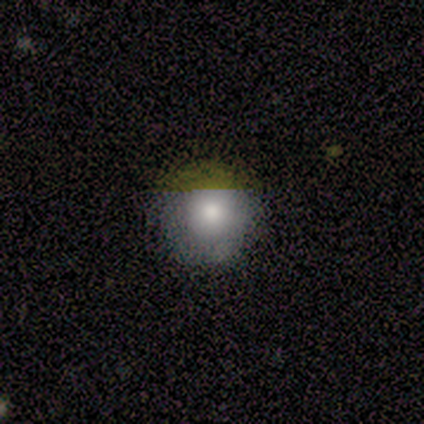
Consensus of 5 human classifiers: Volunteers were most divided on "smooth or featured": smooth: 80%, star or artifact: 20%, featured or disk: 0%. More confident: how rounded — round (100%); merging — none (100%).